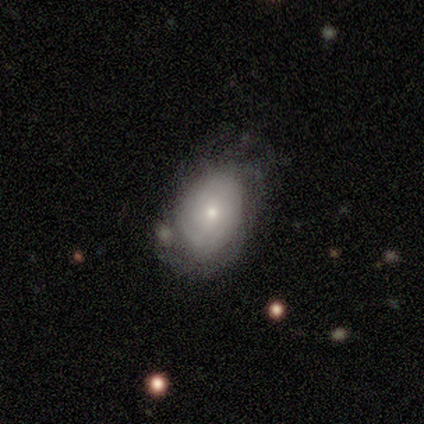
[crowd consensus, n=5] Smooth or featured: featured or disk — 80% (smooth — 20%)
Edge-on disk: no — 100%
Bar: no — 100%
Spiral arms: yes — 50% (tied with no — 50%)
Spiral winding: tight — 100%
Spiral arm count: more than 4 — 50% (tied with can't tell — 50%)
Bulge size: small — 75% (moderate — 25%)
Merging: none — 100%